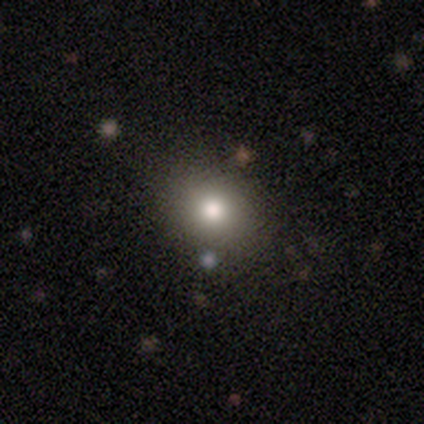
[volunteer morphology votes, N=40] Volunteers were most divided on "how rounded": round: 72%, in between: 28%, cigar-shaped: 0%. More confident: smooth or featured — smooth (90%); merging — none (86%).